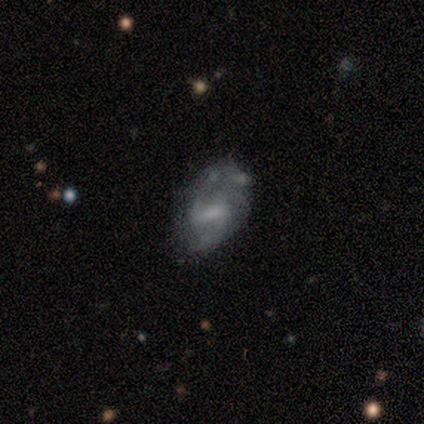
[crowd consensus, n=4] Morphology: type=smooth (100%); roundness=in between (100%); merging=none (75%).